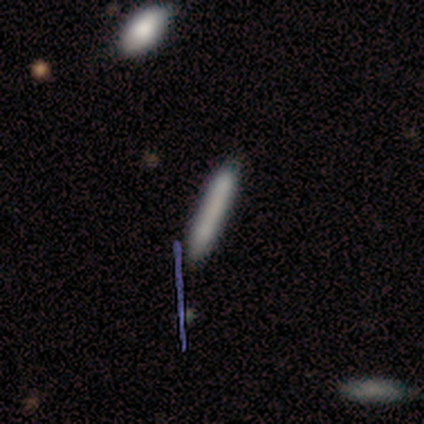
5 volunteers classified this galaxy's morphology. Smooth or featured? smooth (60%)
How rounded? cigar-shaped (100%)
Merging? none (60%)